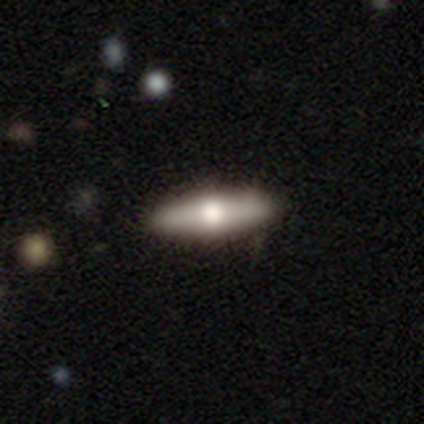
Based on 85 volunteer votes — smooth_or_featured: smooth (p=0.53) [alt: featured or disk p=0.40]
how_rounded: cigar-shaped (p=0.69) [alt: in between p=0.31]
merging: none (p=0.85) [alt: minor disturbance p=0.10]